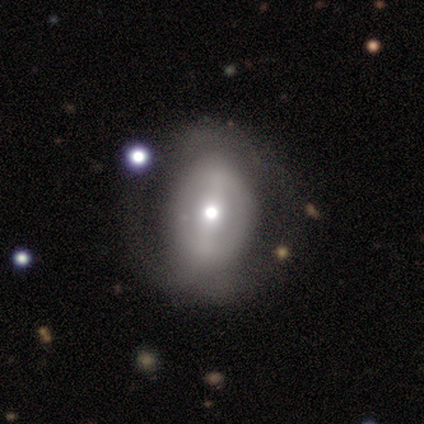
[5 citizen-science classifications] Morphology: type=smooth (80%); roundness=round (75%); merging=none (40%).